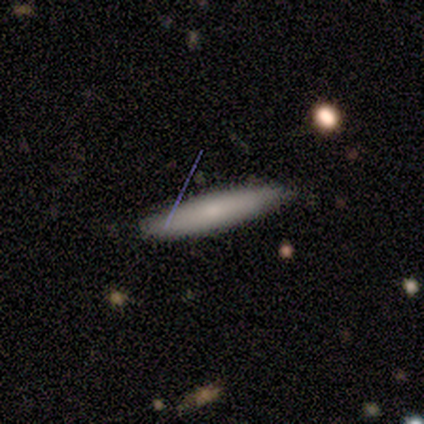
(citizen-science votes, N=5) smooth_or_featured: smooth (p=0.60) [alt: featured or disk p=0.40]
how_rounded: cigar-shaped (p=1.00)
merging: none (p=0.80) [alt: minor disturbance p=0.20]